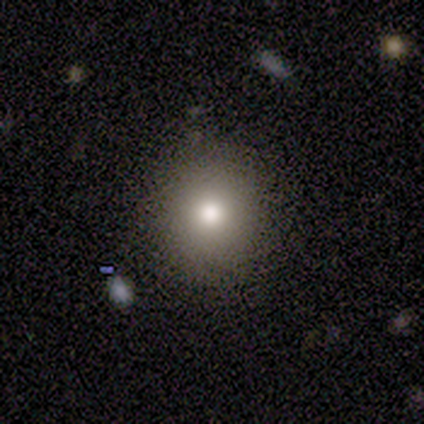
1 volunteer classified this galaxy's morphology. Consensus on every question: smooth or featured — smooth (100%); how rounded — round (100%); merging — none (100%).